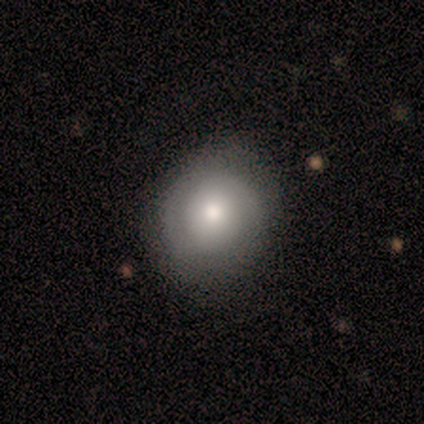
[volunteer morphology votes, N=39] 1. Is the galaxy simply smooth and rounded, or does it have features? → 62% smooth, 26% featured or disk, 13% star or artifact.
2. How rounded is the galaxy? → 83% round, 12% in between, 4% cigar-shaped.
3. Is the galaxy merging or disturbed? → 74% none, 18% minor disturbance, 9% major disturbance, 0% merger.